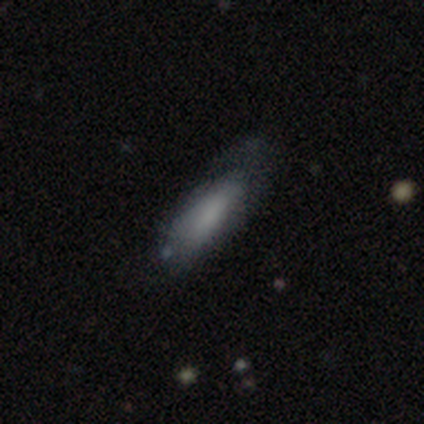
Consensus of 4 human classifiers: This is possibly a smooth galaxy (50%). How rounded: clearly cigar-shaped (100%). Merging: likely none (67%).